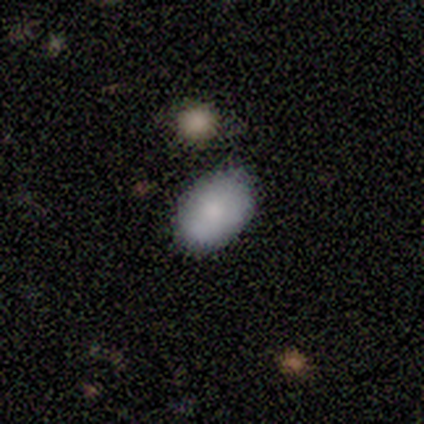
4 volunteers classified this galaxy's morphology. smooth_or_featured: smooth (p=1.00)
how_rounded: in between (p=1.00)
merging: none (p=0.50) [alt: minor disturbance p=0.25]